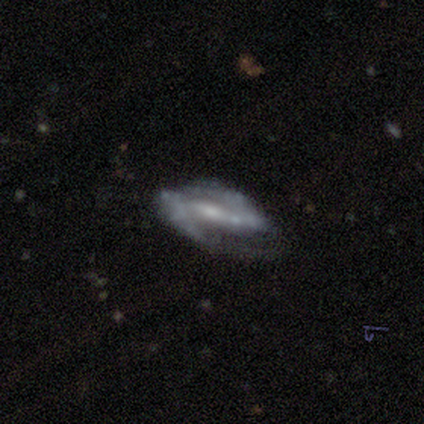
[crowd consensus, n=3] Smooth or featured: featured or disk — 67% (smooth — 33%)
Edge-on disk: no — 100%
Bar: weak — 100%
Spiral arms: yes — 50% (tied with no — 50%)
Spiral winding: medium — 100%
Spiral arm count: 2 — 100%
Bulge size: small — 100%
Merging: minor disturbance — 67% (none — 33%)